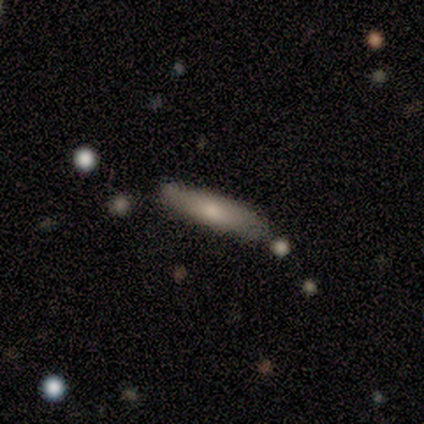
Volunteers were most divided on "how rounded" (2-way tie): in between: 50%, cigar-shaped: 50%, round: 0%. More confident: smooth or featured — smooth (67%); merging — none (67%).